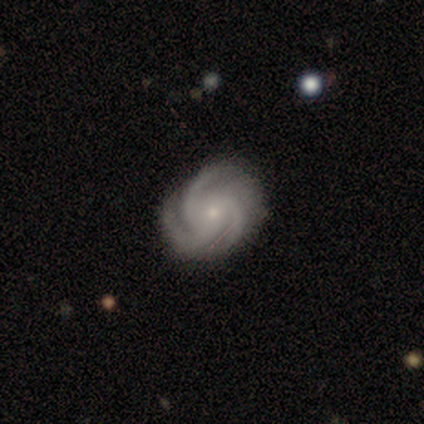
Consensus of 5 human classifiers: Smooth or featured? 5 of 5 (100%) said featured or disk. Edge-on disk? 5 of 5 (100%) said no. Bar? 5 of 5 (100%) said no. Spiral arms? 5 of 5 (100%) said yes. Spiral winding? 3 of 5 (60%) said medium. Spiral arm count? 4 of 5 (80%) said 3. Bulge size? 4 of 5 (80%) said small. Merging? 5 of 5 (100%) said none.